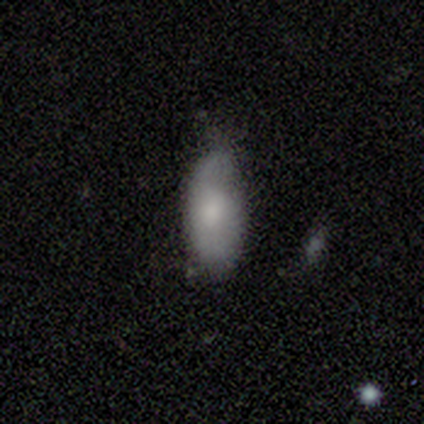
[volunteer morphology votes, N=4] This appears to be a smooth galaxy with no disk features (75%) that is in between round and cigar-shaped (67%). Merging: major disturbance (50%).